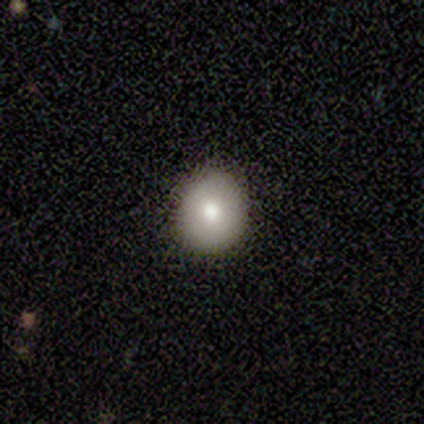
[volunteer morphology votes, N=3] Smooth or featured: smooth — 67% (featured or disk — 33%)
How rounded: round — 50% (tied with in between — 50%)
Merging: none — 100%